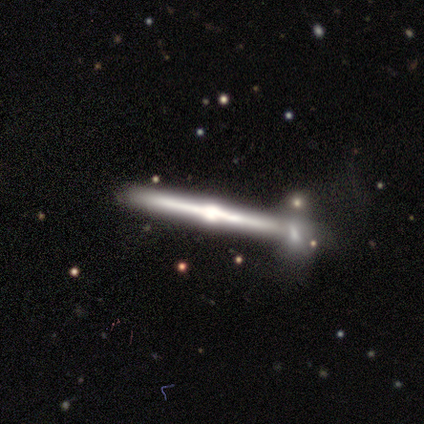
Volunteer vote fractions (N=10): Q: Smooth or featured?
A: featured or disk (90%); runner-up: smooth (10%)
Q: Edge-on disk?
A: yes (100%)
Q: Edge-on bulge?
A: rounded (100%)
Q: Merging?
A: none (30%); tied with: minor disturbance (30%); merger (30%)